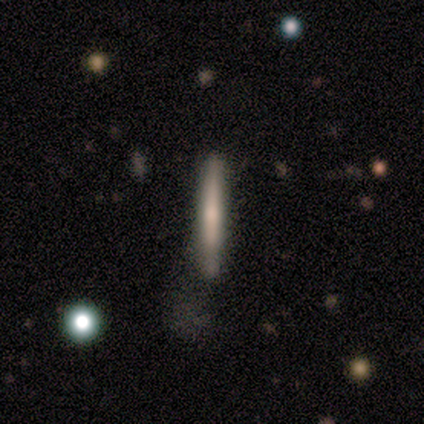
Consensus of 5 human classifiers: Morphology: type=smooth (60%); roundness=cigar-shaped (100%); merging=none (40%).